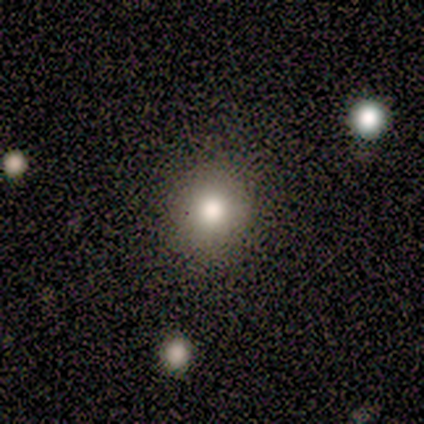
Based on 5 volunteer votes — Smooth or featured?
  - smooth: 60% *
  - star or artifact: 40%
  - featured or disk: 0%
How rounded?
  - round: 100% *
  - in between: 0%
  - cigar-shaped: 0%
Merging?
  - none: 67% *
  - minor disturbance: 33%
  - major disturbance: 0%
  - merger: 0%